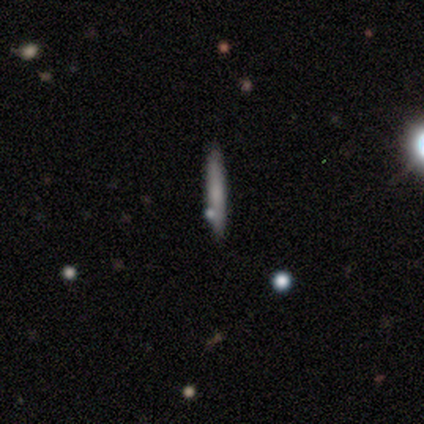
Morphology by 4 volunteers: This appears to be a smooth galaxy with no disk features (50%, tied with featured or disk) that is cigar-shaped (100%). Merging: none (75%).